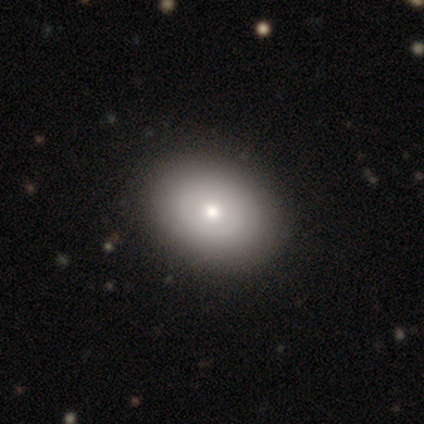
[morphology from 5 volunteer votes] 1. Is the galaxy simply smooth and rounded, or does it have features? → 60% featured or disk, 40% smooth, 0% star or artifact.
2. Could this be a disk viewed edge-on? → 100% no, 0% yes.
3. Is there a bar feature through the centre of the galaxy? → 100% no, 0% strong, 0% weak.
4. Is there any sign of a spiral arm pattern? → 100% no, 0% yes.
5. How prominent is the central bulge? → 67% moderate, 33% small, 0% dominant, 0% large, 0% none.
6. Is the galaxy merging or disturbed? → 100% none, 0% minor disturbance, 0% major disturbance, 0% merger.